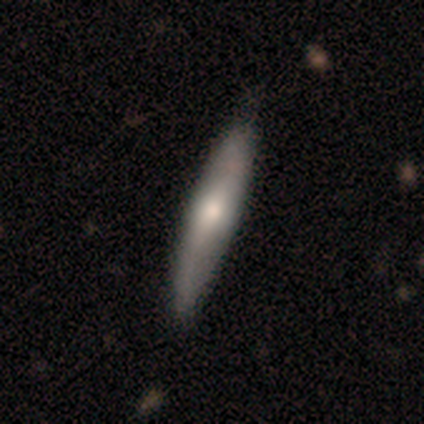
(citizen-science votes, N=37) Smooth or featured?
  - smooth: 46% * (tied)
  - featured or disk: 46% * (tied)
  - star or artifact: 8%
How rounded?
  - cigar-shaped: 82% *
  - in between: 18%
  - round: 0%
Merging?
  - none: 62% *
  - major disturbance: 6%
  - minor disturbance: 0%
  - merger: 0%